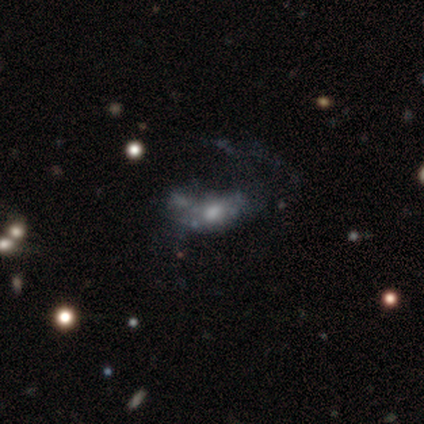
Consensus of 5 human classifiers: Volunteers were most divided on "bar" (2-way tie): strong: 50%, no: 50%, weak: 0%; "bulge size" (2-way tie): moderate: 50%, small: 50%, dominant: 0%, large: 0%, none: 0%. More confident: spiral arms — no (100%); edge-on disk — no (67%); smooth or featured — featured or disk (60%); merging — major disturbance (60%).